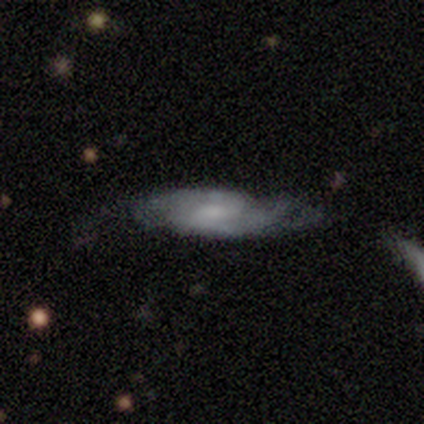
Overall: featured or disk (69%). Edge-on disk: no (78%). Bar: weak (57%; no 43%). Spiral arms: yes (100%). Spiral arm count: 2 (67%). Spiral winding: medium (48%; loose 29%). Bulge size: moderate (43%; small 38%). Merging: none (56%; minor disturbance 19%).